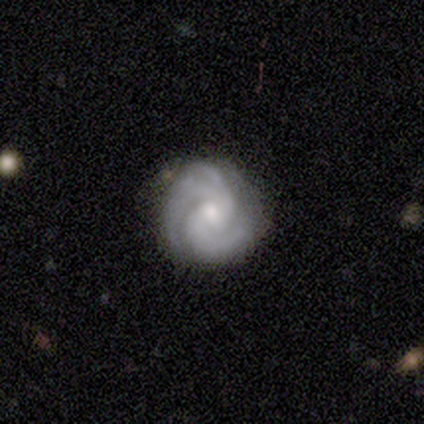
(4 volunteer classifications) Overall: featured or disk (100%). Edge-on disk: no (100%). Bar: no (75%). Spiral arms: yes (100%). Spiral arm count: 2 (75%). Spiral winding: medium (75%). Bulge size: moderate (50%, tied with small). Merging: none (50%; minor disturbance 25%).